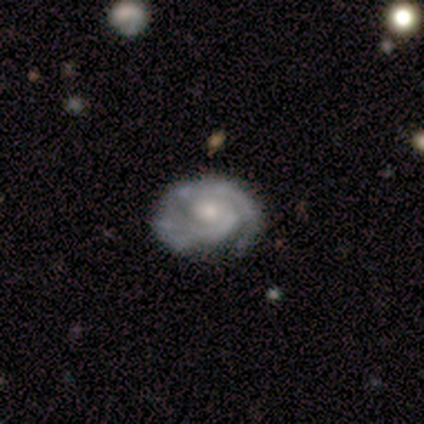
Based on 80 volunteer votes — smooth-or-featured: featured or disk: 88% | smooth: 10% | star or artifact: 2%
  disk-edge-on: no: 93% | yes: 7%
    bar: no: 78% | weak: 18% | strong: 3%
    has-spiral-arms: yes: 97% | no: 3%
      spiral-winding: tight: 62% | medium: 33% | loose: 5%
      spiral-arm-count: 2: 56% | can't tell: 25% | 1: 11% | 3: 6% | 4: 2% | more than 4: 0%
    bulge-size: moderate: 45% | small: 43% | large: 8% | none: 3% | dominant: 2%
  merging: none: 37% | minor disturbance: 10% | major disturbance: 5% | merger: 1%